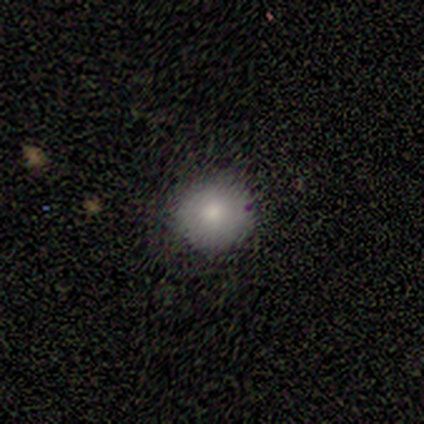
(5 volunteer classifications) Volunteers were most divided on "smooth or featured": smooth: 60%, featured or disk: 20%, star or artifact: 20%. More confident: how rounded — round (100%); merging — none (100%).